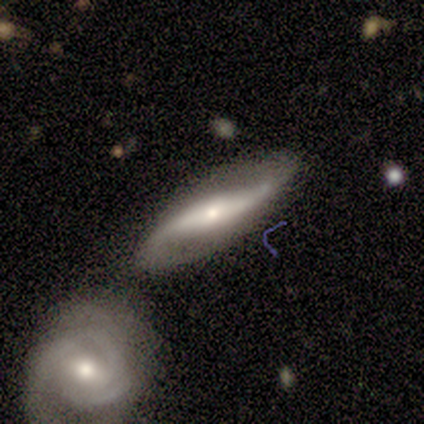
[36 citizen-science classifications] A featured or disk galaxy (81%) with a strong bar (53%), 2 (94%) loose (59%) spiral arms (89%) and a moderate central bulge (47%).

Vote fractions:
- Smooth or featured? featured or disk: 81% / smooth: 14% / star or artifact: 6%
- Edge-on disk? no: 66% / yes: 34%
- Bar? strong: 53% / no: 26% / weak: 21%
- Spiral arms? yes: 89% / no: 11%
- Spiral winding? loose: 59% / medium: 24% / tight: 18%
- Spiral arm count? 2: 94% / 3: 6% / 1: 0% / 4: 0% / more than 4: 0% / can't tell: 0%
- Bulge size? moderate: 47% / small: 42% / large: 11% / dominant: 0% / none: 0%
- Merging? none: 35% / merger: 29% / minor disturbance: 26% / major disturbance: 9%